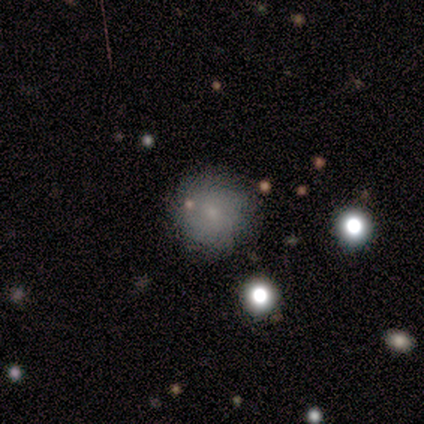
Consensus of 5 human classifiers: Smooth or featured? 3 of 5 (60%) said smooth. How rounded? 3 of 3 (100%) said round. Merging? 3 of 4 (75%) said none.